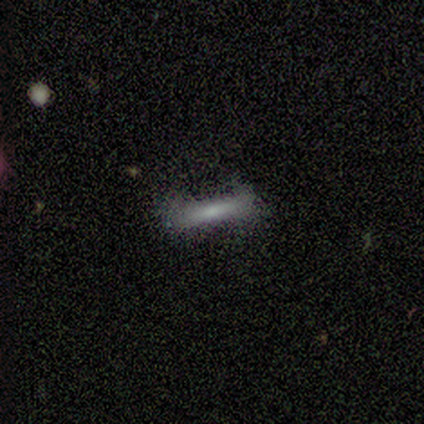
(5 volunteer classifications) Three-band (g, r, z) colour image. It shows a featured or disk galaxy (60%) viewed edge-on (100%) with no central bulge (100%). Merging: none (100%).